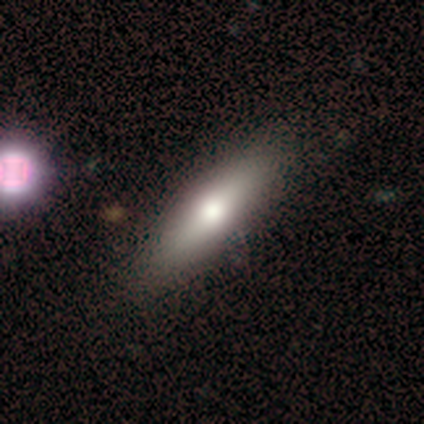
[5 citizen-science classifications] Smooth or featured? smooth (40%, tied with featured or disk)
How rounded? in between (50%, tied with cigar-shaped)
Merging? none (75%)